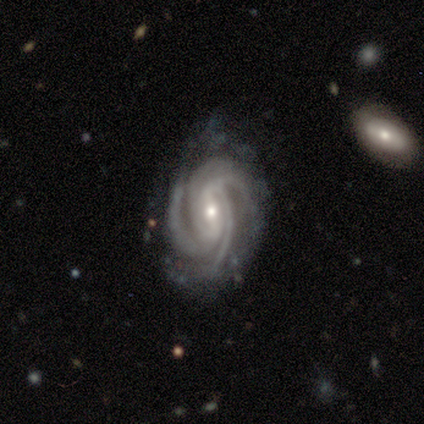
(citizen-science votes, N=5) A featured or disk galaxy (100%) with a strong bar (60%), 4 (60%) tight (60%) spiral arms (100%) and a small central bulge (60%).

Vote fractions:
- Smooth or featured? featured or disk: 100% / smooth: 0% / star or artifact: 0%
- Edge-on disk? no: 100% / yes: 0%
- Bar? strong: 60% / weak: 40% / no: 0%
- Spiral arms? yes: 100% / no: 0%
- Spiral winding? tight: 60% / medium: 40% / loose: 0%
- Spiral arm count? 4: 60% / 3: 40% / 1: 0% / 2: 0% / more than 4: 0% / can't tell: 0%
- Bulge size? small: 60% / moderate: 40% / dominant: 0% / large: 0% / none: 0%
- Merging? none: 60% / minor disturbance: 40% / major disturbance: 0% / merger: 0%